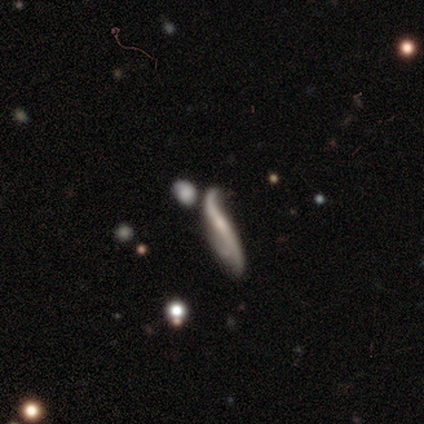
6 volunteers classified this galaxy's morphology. Smooth or featured? featured or disk (100%)
Edge-on disk? no (83%)
Bar? no (80%)
Spiral arms? yes (60%)
Spiral winding? tight (67%)
Spiral arm count? 2 (100%)
Bulge size? small (60%)
Merging? none (50%)